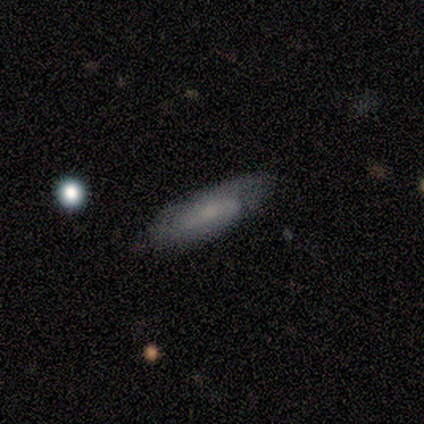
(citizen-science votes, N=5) This is clearly a smooth galaxy (80%). How rounded: possibly in between (50%, tied with cigar-shaped). Merging: clearly none (80%).